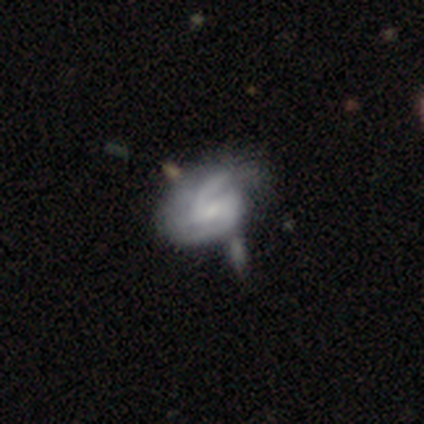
Overall: featured or disk (71%). Edge-on disk: no (97%). Bar: weak (50%; no 32%). Spiral arms: yes (86%). Spiral arm count: 2 (79%). Spiral winding: medium (71%). Bulge size: small (46%; none 29%). Merging: minor disturbance (41%; none 26%).